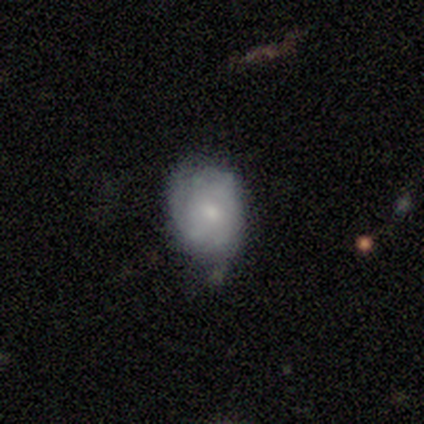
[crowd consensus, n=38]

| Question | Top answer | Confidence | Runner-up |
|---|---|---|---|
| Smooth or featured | smooth | 53% | featured or disk (42%) |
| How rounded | in between | 60% | round (40%) |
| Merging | none | 50% | minor disturbance (47%) |